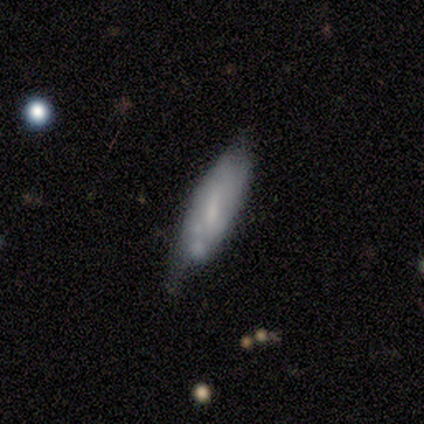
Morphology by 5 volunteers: A smooth galaxy with no disk features (100%) that is in between round and cigar-shaped (80%). Merging: minor disturbance (40%).